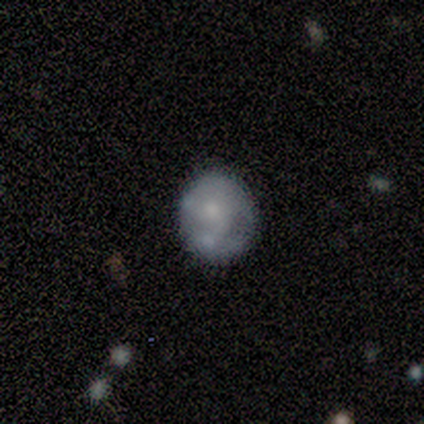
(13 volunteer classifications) Overall: smooth (62%; featured or disk 38%). How rounded: round (50%, tied with in between). Merging: none (46%; minor disturbance 23%).